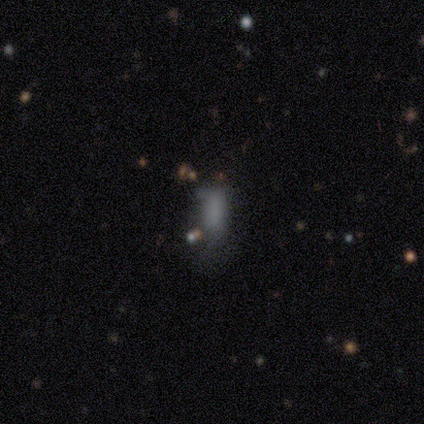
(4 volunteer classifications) Volunteers were most divided on "smooth or featured": smooth: 75%, star or artifact: 25%, featured or disk: 0%. More confident: how rounded — in between (100%); merging — none (100%).